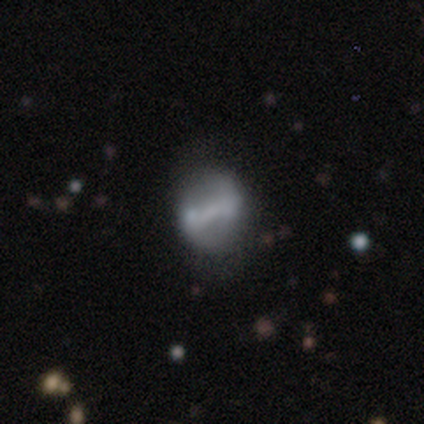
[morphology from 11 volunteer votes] A featured or disk galaxy (73%) with a strong bar (62%), 2 (50%, tied with can't tell) loose (75%) spiral arms (50%, tied with no) and no central bulge (62%).

Vote fractions:
- Smooth or featured? featured or disk: 73% / smooth: 27% / star or artifact: 0%
- Edge-on disk? no: 100% / yes: 0%
- Bar? strong: 62% / weak: 38% / no: 0%
- Spiral arms? yes: 50% (tied) / no: 50% (tied)
- Spiral winding? loose: 75% / tight: 25% / medium: 0%
- Spiral arm count? 2: 50% (tied) / can't tell: 50% (tied) / 1: 0% / 3: 0% / 4: 0% / more than 4: 0%
- Bulge size? none: 62% / small: 38% / dominant: 0% / large: 0% / moderate: 0%
- Merging? none: 64% / minor disturbance: 27% / merger: 9% / major disturbance: 0%